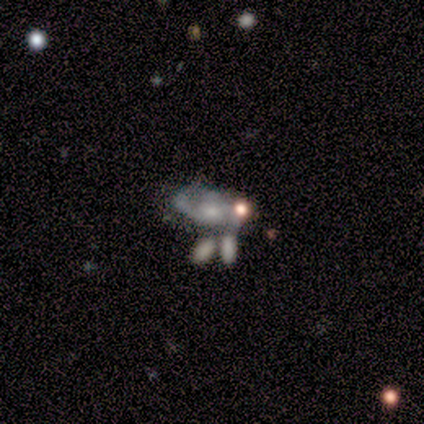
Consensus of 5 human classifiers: Overall: featured or disk (80%). Edge-on disk: no (100%). Bar: no (100%). Spiral arms: yes (75%). Spiral arm count: 2 (33%, tied with 3 and can't tell). Spiral winding: tight (100%). Bulge size: moderate (50%, tied with small). Merging: none (50%, tied with merger).